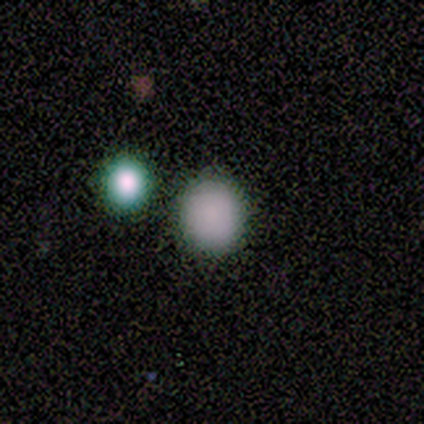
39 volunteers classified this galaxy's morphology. smooth-or-featured: smooth: 79% | featured or disk: 10% | star or artifact: 10%
  how-rounded: round: 90% | in between: 10% | cigar-shaped: 0%
  merging: none: 86% | minor disturbance: 6% | merger: 6% | major disturbance: 3%